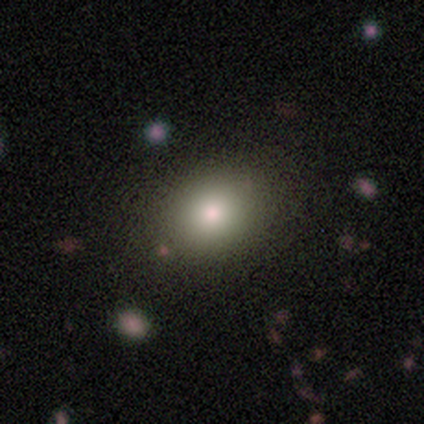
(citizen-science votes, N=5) Smooth or featured? 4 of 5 (80%) said smooth. How rounded? 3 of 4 (75%) said in between. Merging? 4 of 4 (100%) said none.